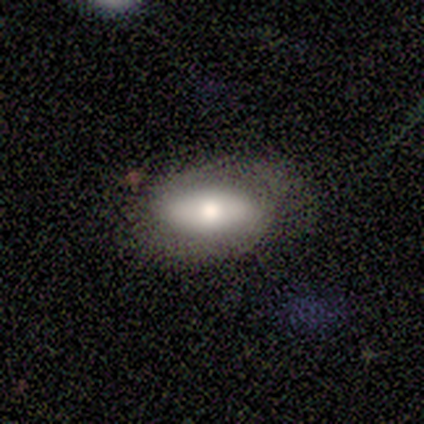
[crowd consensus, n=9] smooth-or-featured: smooth: 56% | featured or disk: 44% | star or artifact: 0%
  how-rounded: in between: 100% | round: 0% | cigar-shaped: 0%
  merging: none: 56% | minor disturbance: 33% | major disturbance: 11% | merger: 0%